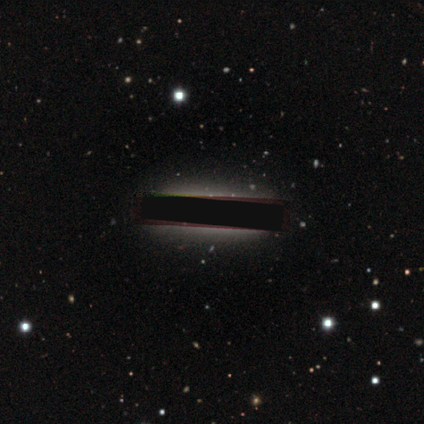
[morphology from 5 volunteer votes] A featured or disk galaxy (40%, tied with star or artifact) viewed edge-on (50%, tied with no) with no central bulge (100%).

Vote fractions:
- Smooth or featured? featured or disk: 40% (tied) / star or artifact: 40% (tied) / smooth: 20%
- Edge-on disk? yes: 50% (tied) / no: 50% (tied)
- Edge-on bulge? none: 100% / boxy: 0% / rounded: 0%
- Merging? minor disturbance: 67% / none: 33% / major disturbance: 0% / merger: 0%